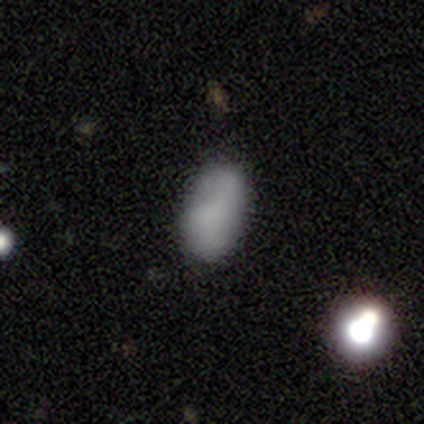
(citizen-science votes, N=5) Morphology: type=smooth (80%); roundness=in between (100%); merging=none (60%).